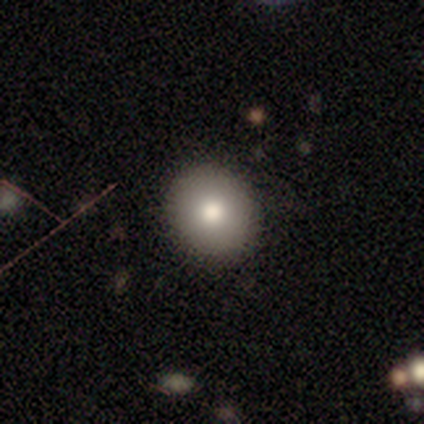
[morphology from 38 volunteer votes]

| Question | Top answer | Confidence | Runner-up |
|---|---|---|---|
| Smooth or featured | smooth | 66% | featured or disk (24%) |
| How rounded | round | 84% | in between (12%) |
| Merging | none | 94% | minor disturbance (6%) |